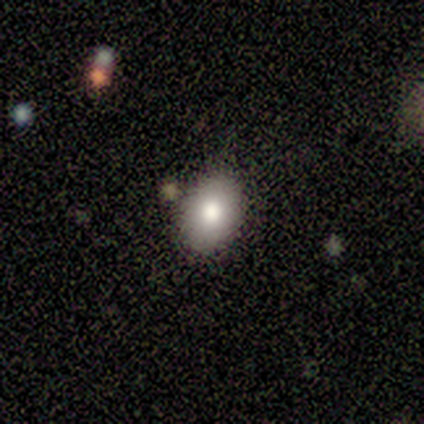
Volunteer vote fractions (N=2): A smooth galaxy with no disk features (100%) that is in between round and cigar-shaped (100%).

Vote fractions:
- Smooth or featured? smooth: 100% / featured or disk: 0% / star or artifact: 0%
- How rounded? in between: 100% / round: 0% / cigar-shaped: 0%
- Merging? none: 100% / minor disturbance: 0% / major disturbance: 0% / merger: 0%